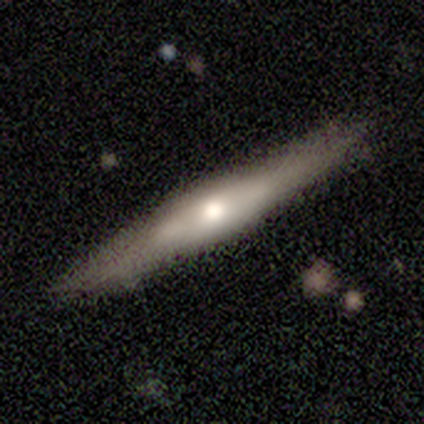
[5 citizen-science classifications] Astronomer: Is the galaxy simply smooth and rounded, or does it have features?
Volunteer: featured or disk — 100%.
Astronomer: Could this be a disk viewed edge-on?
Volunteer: yes — 100%.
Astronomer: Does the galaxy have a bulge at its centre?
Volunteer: rounded — 60% (runner-up: none, 40%).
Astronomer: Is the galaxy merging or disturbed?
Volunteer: none — 60%.